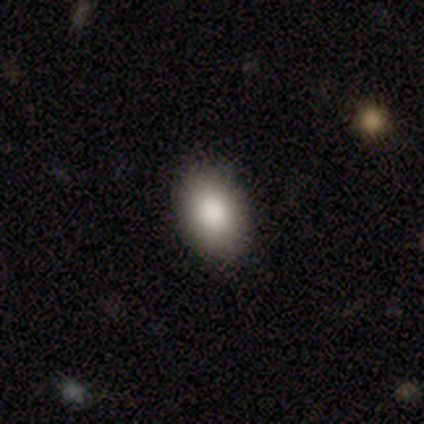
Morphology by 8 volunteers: smooth-or-featured: smooth: 100% | featured or disk: 0% | star or artifact: 0%
  how-rounded: in between: 75% | round: 25% | cigar-shaped: 0%
  merging: none: 100% | minor disturbance: 0% | major disturbance: 0% | merger: 0%